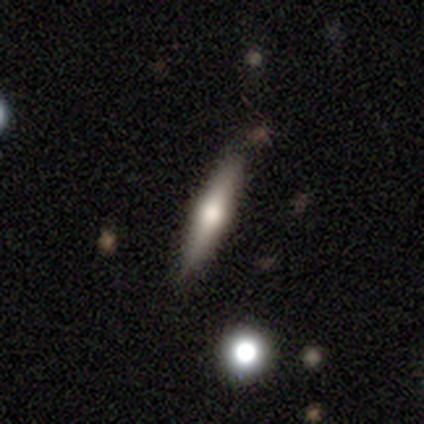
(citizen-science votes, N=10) Smooth or featured? 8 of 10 (80%) said smooth. How rounded? 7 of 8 (88%) said cigar-shaped. Merging? 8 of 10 (80%) said none.